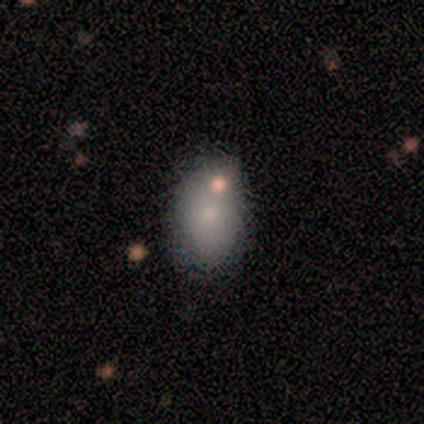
smooth_or_featured: smooth (p=0.75) [alt: featured or disk p=0.25]
how_rounded: in between (p=1.00)
merging: none (p=0.50) [tied with: minor disturbance p=0.50]